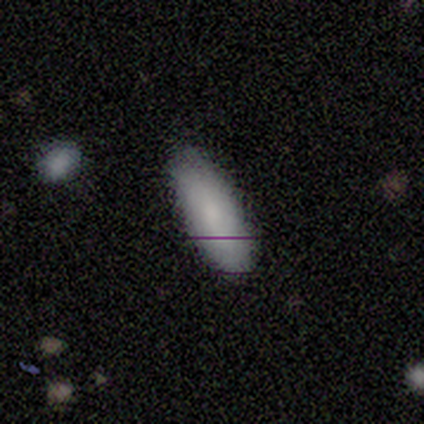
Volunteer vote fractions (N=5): Smooth or featured?
  - smooth: 80% *
  - featured or disk: 20%
  - star or artifact: 0%
How rounded?
  - in between: 75% *
  - cigar-shaped: 25%
  - round: 0%
Merging?
  - none: 80% *
  - major disturbance: 20%
  - minor disturbance: 0%
  - merger: 0%